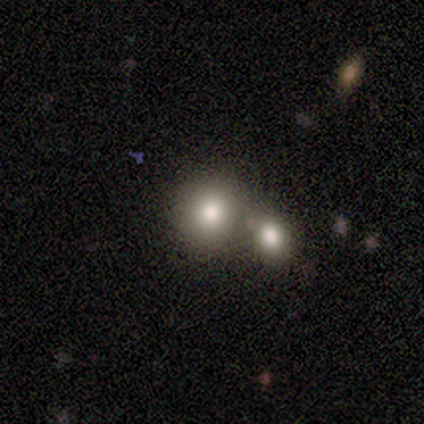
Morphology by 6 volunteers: type=smooth (67%); roundness=round (50%, tied with in between); merging=merger (80%).